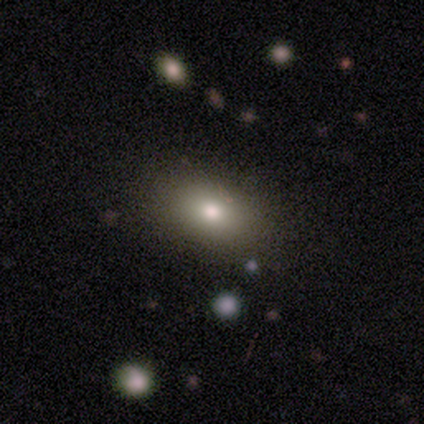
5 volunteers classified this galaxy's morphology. This is clearly a smooth galaxy (80%). How rounded: clearly in between (100%). Merging: clearly none (80%).